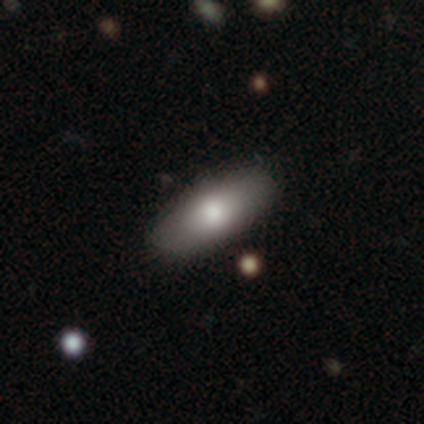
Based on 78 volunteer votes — Smooth or featured: smooth — 83% (featured or disk — 12%)
How rounded: in between — 82% (cigar-shaped — 18%)
Merging: none — 46% (merger — 5%)